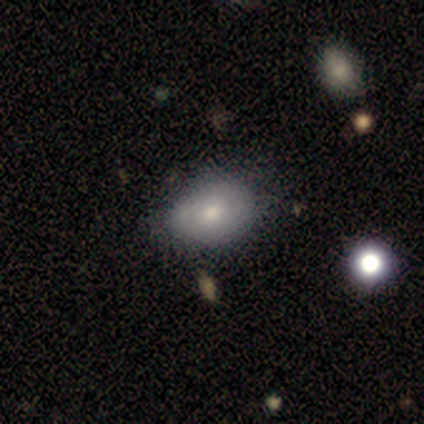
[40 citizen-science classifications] Smooth or featured: smooth — 60% (featured or disk — 28%)
How rounded: in between — 88% (round — 12%)
Merging: none — 54% (minor disturbance — 26%)